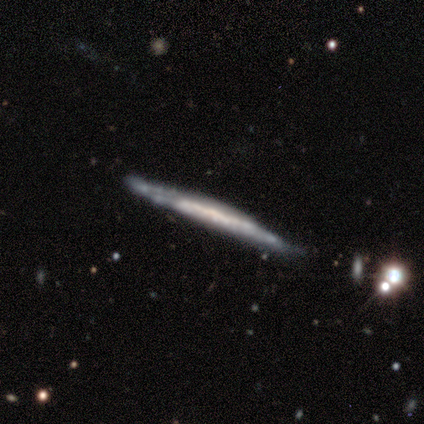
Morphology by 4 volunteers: A featured or disk galaxy (75%) viewed edge-on (100%) with no central bulge (67%).

Vote fractions:
- Smooth or featured? featured or disk: 75% / smooth: 25% / star or artifact: 0%
- Edge-on disk? yes: 100% / no: 0%
- Edge-on bulge? none: 67% / rounded: 33% / boxy: 0%
- Merging? none: 100% / minor disturbance: 0% / major disturbance: 0% / merger: 0%